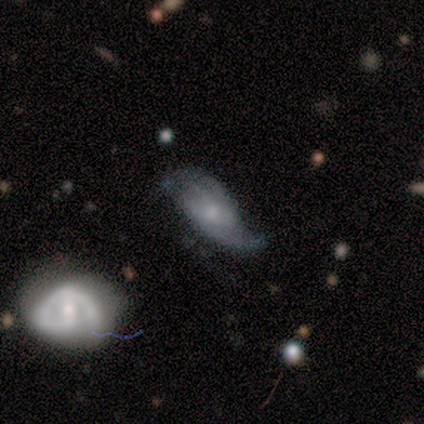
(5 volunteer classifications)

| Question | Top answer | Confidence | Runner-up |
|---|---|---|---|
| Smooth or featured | featured or disk | 100% | — |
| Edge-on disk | no | 100% | — |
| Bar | no | 60% | weak (40%) |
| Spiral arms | yes | 100% | — |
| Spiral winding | tight | 40% | tied: medium (40%) |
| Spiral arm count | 2 | 100% | — |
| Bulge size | small | 80% | moderate (20%) |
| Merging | none | 80% | major disturbance (20%) |